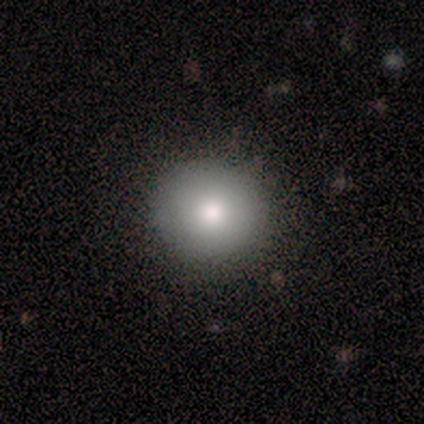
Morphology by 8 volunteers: smooth_or_featured: smooth (p=1.00)
how_rounded: round (p=1.00)
merging: none (p=0.88) [alt: minor disturbance p=0.12]